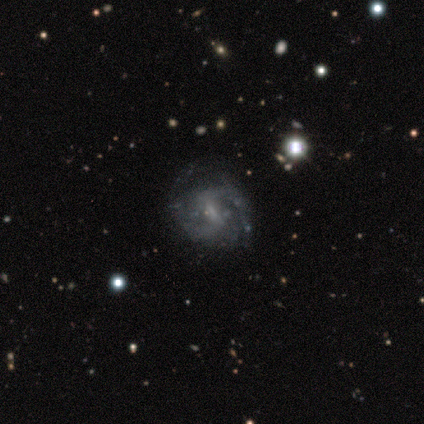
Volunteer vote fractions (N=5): Smooth or featured? 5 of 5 (100%) said featured or disk. Edge-on disk? 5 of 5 (100%) said no. Bar? 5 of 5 (100%) said weak. Spiral arms? 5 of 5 (100%) said yes. Spiral winding? 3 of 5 (60%) said tight. Spiral arm count? 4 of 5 (80%) said 2. Bulge size? 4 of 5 (80%) said small. Merging? 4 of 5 (80%) said none.